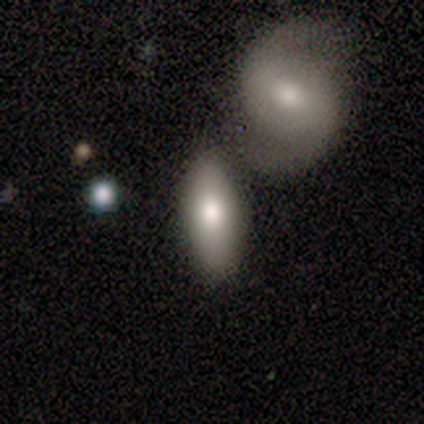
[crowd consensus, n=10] Smooth or featured? 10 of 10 (100%) said smooth. How rounded? 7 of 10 (70%) said in between. Merging? 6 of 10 (60%) said none.